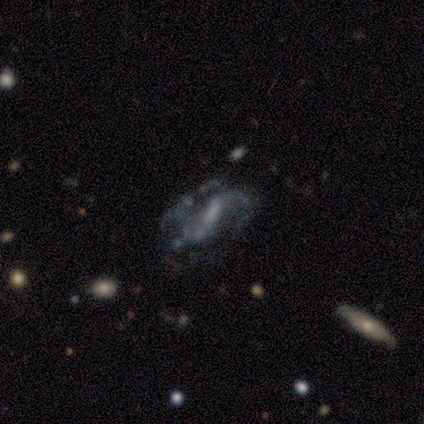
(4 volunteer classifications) This is clearly a featured or disk galaxy (100%). It is clearly not viewed edge-on (100%). Bar: possibly weak (50%). Spiral arm pattern: likely yes (75%). Spiral arm count: clearly 2 (100%). Spiral winding: clearly medium (100%). Central bulge: marginally large (25%, tied with moderate, small and none). Merging: likely none (75%).